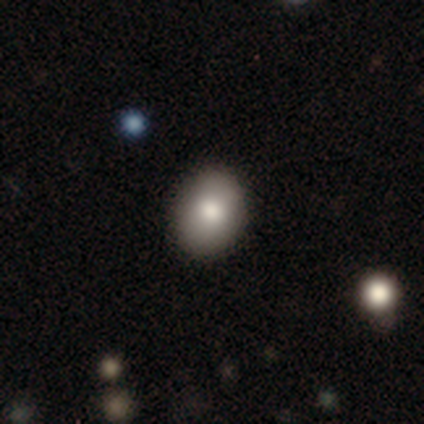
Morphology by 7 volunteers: Smooth or featured? 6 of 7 (86%) said smooth. How rounded? 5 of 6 (83%) said in between. Merging? 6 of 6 (100%) said none.